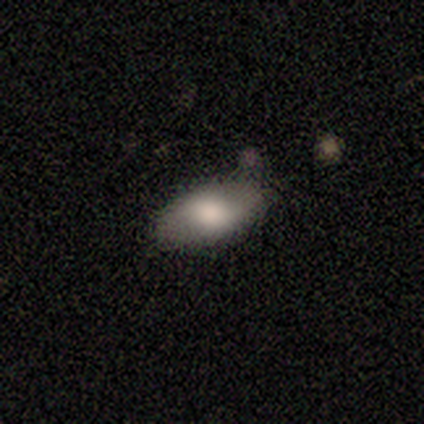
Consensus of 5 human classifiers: Q: Smooth or featured?
A: smooth (60%); runner-up: featured or disk (40%)
Q: How rounded?
A: in between (100%)
Q: Merging?
A: none (80%); runner-up: minor disturbance (20%)